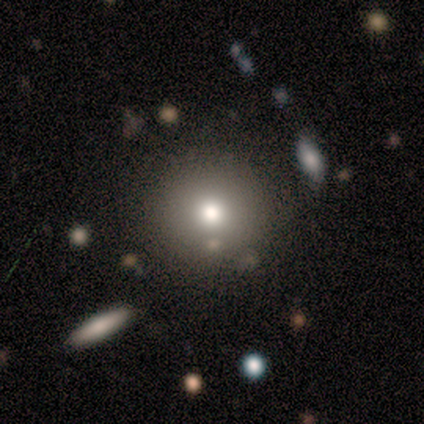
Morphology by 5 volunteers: Smooth or featured? smooth (100%)
How rounded? round (100%)
Merging? none (100%)